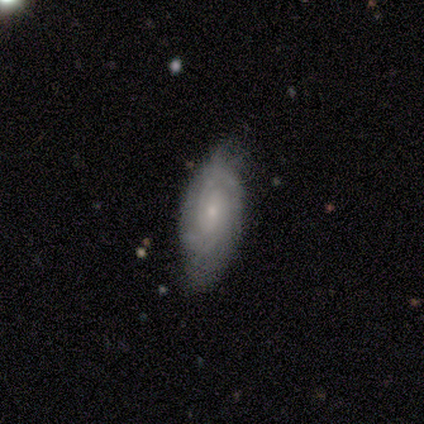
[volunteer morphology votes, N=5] A featured or disk galaxy (100%) with no bar (80%), 2 (75%) tight (100%) spiral arms (80%) and a small central bulge (60%).

Vote fractions:
- Smooth or featured? featured or disk: 100% / smooth: 0% / star or artifact: 0%
- Edge-on disk? no: 100% / yes: 0%
- Bar? no: 80% / weak: 20% / strong: 0%
- Spiral arms? yes: 80% / no: 20%
- Spiral winding? tight: 100% / medium: 0% / loose: 0%
- Spiral arm count? 2: 75% / can't tell: 25% / 1: 0% / 3: 0% / 4: 0% / more than 4: 0%
- Bulge size? small: 60% / moderate: 40% / dominant: 0% / large: 0% / none: 0%
- Merging? minor disturbance: 80% / none: 20% / major disturbance: 0% / merger: 0%